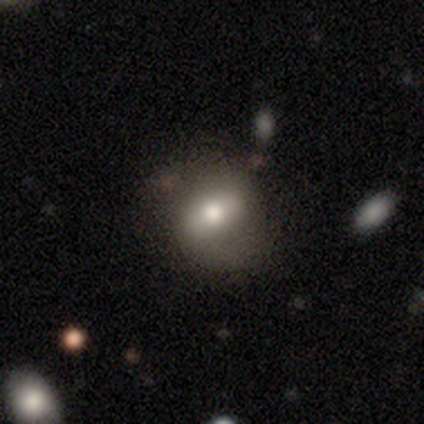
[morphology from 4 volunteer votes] A smooth galaxy with no disk features (50%, tied with featured or disk) that is in between round and cigar-shaped (100%).

Vote fractions:
- Smooth or featured? smooth: 50% (tied) / featured or disk: 50% (tied) / star or artifact: 0%
- How rounded? in between: 100% / round: 0% / cigar-shaped: 0%
- Merging? none: 50% (tied) / minor disturbance: 50% (tied) / major disturbance: 0% / merger: 0%